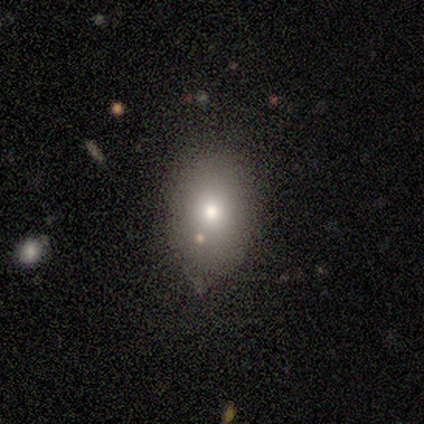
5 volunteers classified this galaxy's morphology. A smooth galaxy with no disk features (100%) that is in between round and cigar-shaped (60%). Merging: none (100%).